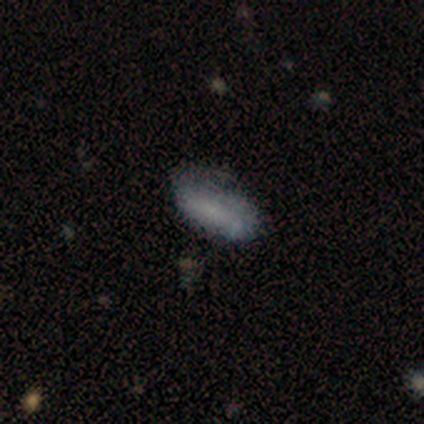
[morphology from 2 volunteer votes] This is clearly a smooth galaxy (100%). How rounded: possibly in between (50%, tied with cigar-shaped). Merging: clearly none (100%).